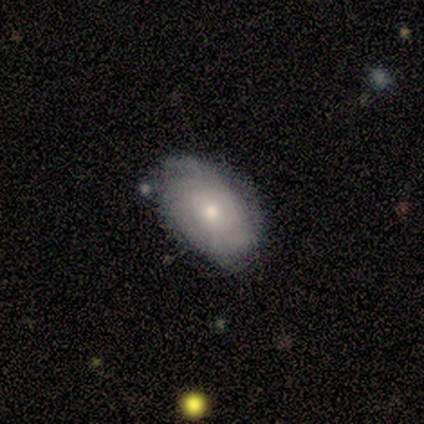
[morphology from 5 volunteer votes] Smooth or featured: smooth — 40% (tied with featured or disk — 40%)
How rounded: round — 50% (tied with in between — 50%)
Merging: none — 75% (minor disturbance — 25%)